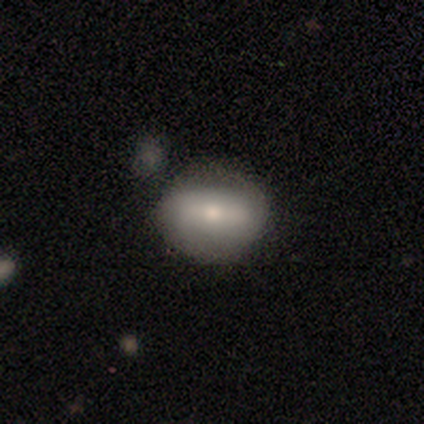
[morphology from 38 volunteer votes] A smooth galaxy with no disk features (66%) that is in between round and cigar-shaped (60%). Merging: none (86%).